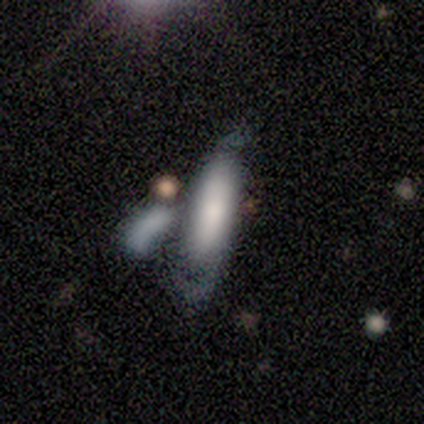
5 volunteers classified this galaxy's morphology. Smooth or featured? smooth (60%)
How rounded? cigar-shaped (67%)
Merging? major disturbance (40%, tied with merger)